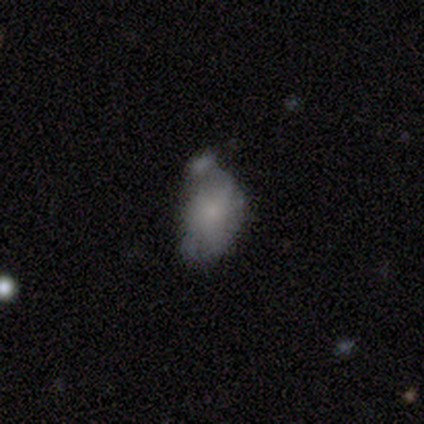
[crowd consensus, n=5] Q: Smooth or featured?
A: smooth (60%); runner-up: featured or disk (40%)
Q: How rounded?
A: in between (67%); runner-up: round (33%)
Q: Merging?
A: major disturbance (60%); runner-up: minor disturbance (20%)